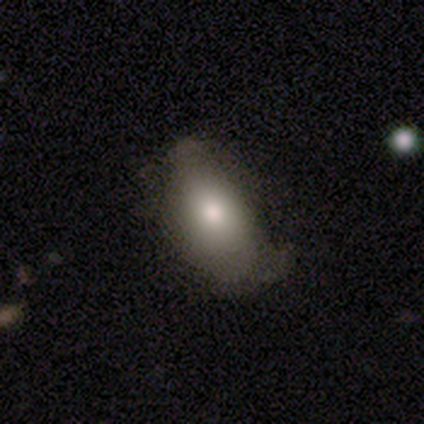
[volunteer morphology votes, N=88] Smooth or featured? smooth (76%)
How rounded? in between (90%)
Merging? none (48%)